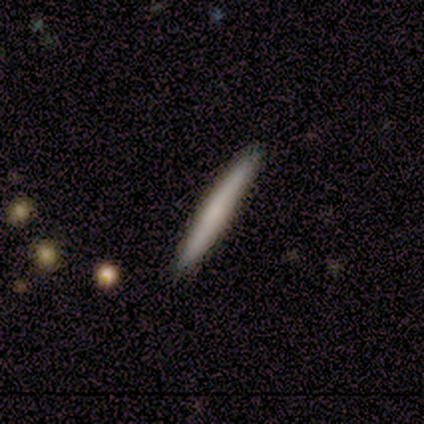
Q: Smooth or featured?
A: smooth (75%); runner-up: star or artifact (25%)
Q: How rounded?
A: cigar-shaped (100%)
Q: Merging?
A: none (100%)